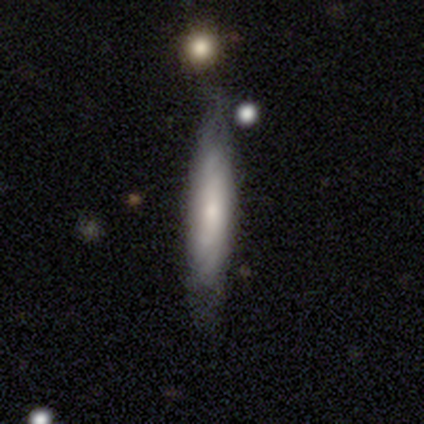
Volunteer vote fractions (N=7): featured or disk 57%, smooth 29%, star or artifact 14%. Down the decision tree: edge-on disk — yes (50%, tied with no); edge-on bulge — none (100%); merging — none (67%).